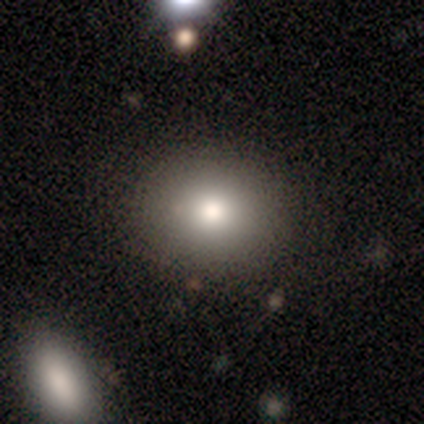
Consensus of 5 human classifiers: Smooth or featured? smooth (60%)
How rounded? in between (67%)
Merging? none (75%)